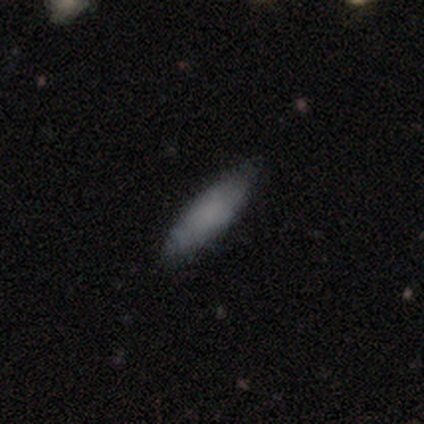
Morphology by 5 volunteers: smooth 80%, featured or disk 20%, star or artifact 0%. Down the decision tree: how rounded — in between (75%); merging — minor disturbance (60%).